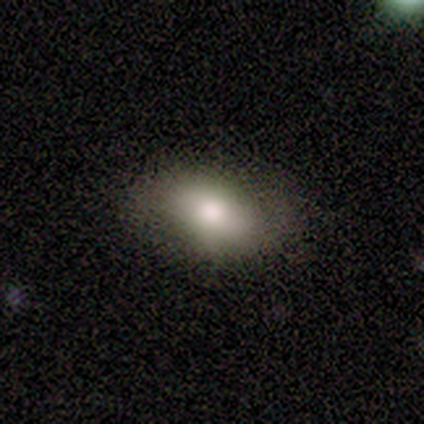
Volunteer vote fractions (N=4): This appears to be a smooth galaxy with no disk features (75%) that is in between round and cigar-shaped (100%). Merging: none (100%).